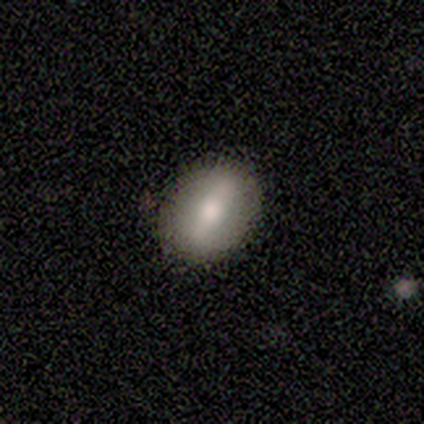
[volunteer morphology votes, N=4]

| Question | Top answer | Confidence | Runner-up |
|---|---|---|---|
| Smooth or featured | smooth | 100% | — |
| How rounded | in between | 50% | round (25%) |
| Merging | none | 75% | minor disturbance (25%) |